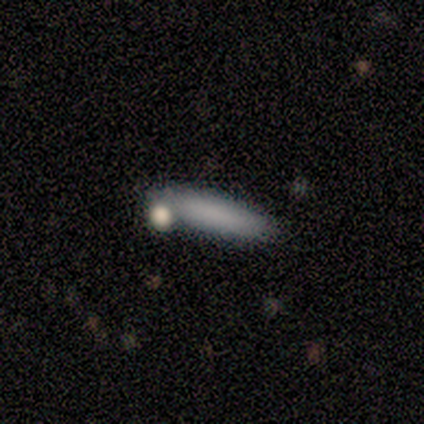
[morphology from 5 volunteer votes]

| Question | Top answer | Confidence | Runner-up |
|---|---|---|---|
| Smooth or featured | featured or disk | 60% | smooth (40%) |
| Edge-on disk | yes | 67% | no (33%) |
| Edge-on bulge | none | 50% | tied: rounded (50%) |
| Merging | merger | 40% | none (20%) |